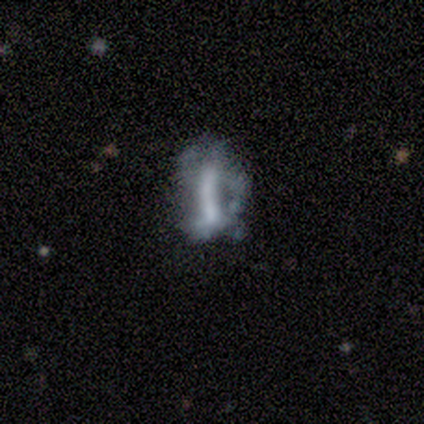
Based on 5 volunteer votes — smooth 40% (tied), featured or disk 40% (tied), star or artifact 20%. Down the decision tree: how rounded — in between (100%); merging — none (50%).